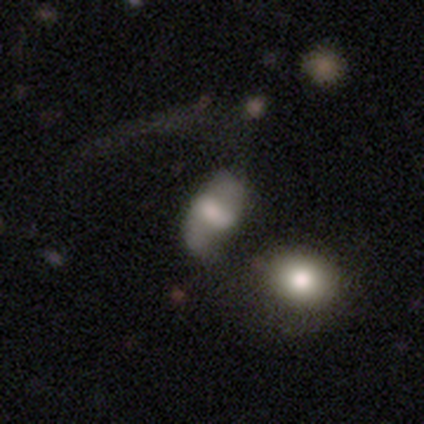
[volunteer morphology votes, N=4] Volunteers were most divided on "edge-on bulge" (2-way tie): boxy: 50%, rounded: 50%, none: 0%. More confident: smooth or featured — featured or disk (75%); merging — none (75%); edge-on disk — yes (67%).